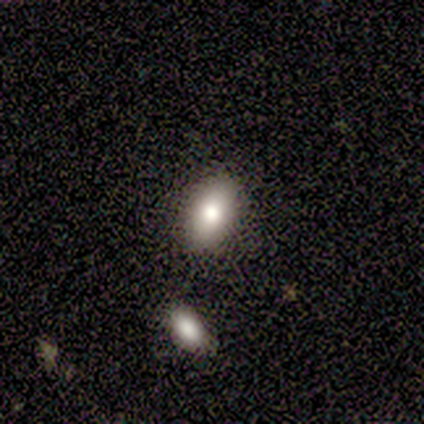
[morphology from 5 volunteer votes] A smooth galaxy with no disk features (40%, tied with featured or disk) that is round (50%, tied with in between).

Vote fractions:
- Smooth or featured? smooth: 40% (tied) / featured or disk: 40% (tied) / star or artifact: 20%
- How rounded? round: 50% (tied) / in between: 50% (tied) / cigar-shaped: 0%
- Merging? none: 100% / minor disturbance: 0% / major disturbance: 0% / merger: 0%